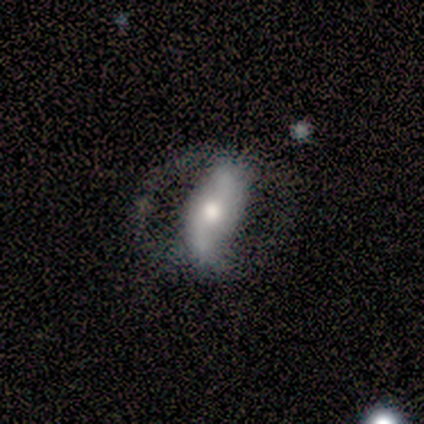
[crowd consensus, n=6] Volunteers were most divided on "spiral winding" (2-way tie): medium: 50%, loose: 50%, tight: 0%. More confident: edge-on disk — no (100%); smooth or featured — featured or disk (83%); merging — none (83%); spiral arms — yes (80%); spiral arm count — 2 (75%); bulge size — moderate (60%); bar — strong (60%).